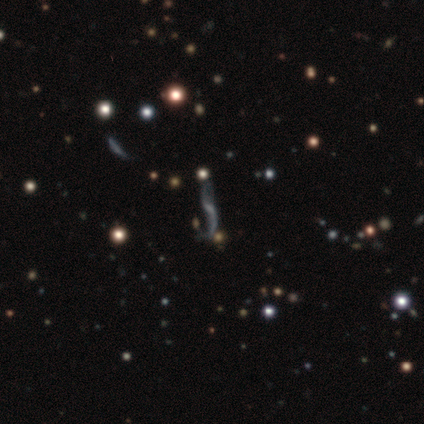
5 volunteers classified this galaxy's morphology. Smooth or featured?
  - featured or disk: 60% *
  - star or artifact: 40%
  - smooth: 0%
Edge-on disk?
  - no: 67% *
  - yes: 33%
Bar?
  - weak: 100% *
  - strong: 0%
  - no: 0%
Spiral arms?
  - yes: 100% *
  - no: 0%
Spiral winding?
  - loose: 100% *
  - tight: 0%
  - medium: 0%
Spiral arm count?
  - 2: 100% *
  - 1: 0%
  - 3: 0%
  - 4: 0%
  - more than 4: 0%
  - can't tell: 0%
Bulge size?
  - none: 100% *
  - dominant: 0%
  - large: 0%
  - moderate: 0%
  - small: 0%
Merging?
  - none: 33% * (tied)
  - minor disturbance: 33% * (tied)
  - major disturbance: 33% * (tied)
  - merger: 0%